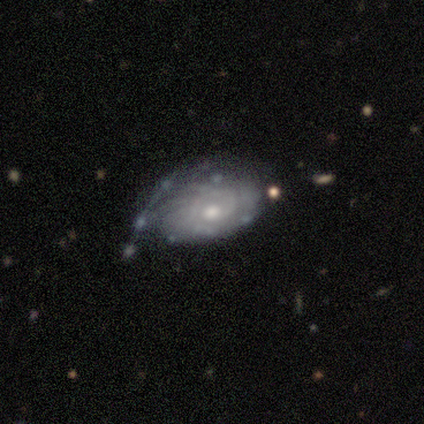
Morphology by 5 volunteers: A featured or disk galaxy (80%) with no bar (100%), tight (100%) spiral arms (100%) and a moderate central bulge (75%).

Vote fractions:
- Smooth or featured? featured or disk: 80% / smooth: 20% / star or artifact: 0%
- Edge-on disk? no: 100% / yes: 0%
- Bar? no: 100% / strong: 0% / weak: 0%
- Spiral arms? yes: 100% / no: 0%
- Spiral winding? tight: 100% / medium: 0% / loose: 0%
- Spiral arm count? can't tell: 100% / 1: 0% / 2: 0% / 3: 0% / 4: 0% / more than 4: 0%
- Bulge size? moderate: 75% / small: 25% / dominant: 0% / large: 0% / none: 0%
- Merging? minor disturbance: 60% / none: 20% / major disturbance: 20% / merger: 0%